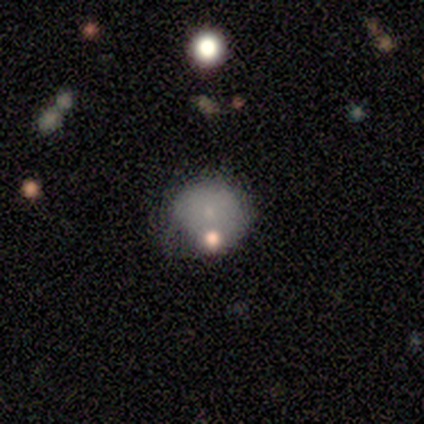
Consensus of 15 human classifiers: Q: Smooth or featured?
A: smooth (60%); runner-up: featured or disk (20%)
Q: How rounded?
A: round (89%); runner-up: in between (11%)
Q: Merging?
A: minor disturbance (42%); runner-up: none (33%)